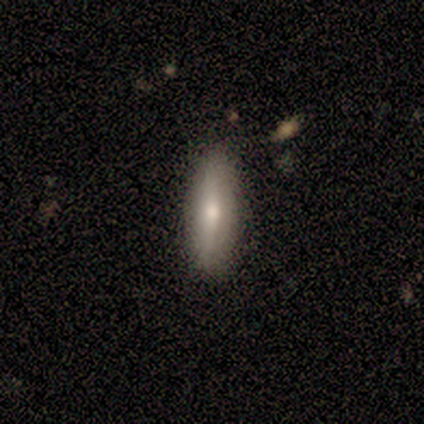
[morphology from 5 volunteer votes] smooth_or_featured: smooth (p=0.60) [alt: featured or disk p=0.40]
how_rounded: cigar-shaped (p=0.67) [alt: in between p=0.33]
merging: none (p=1.00)